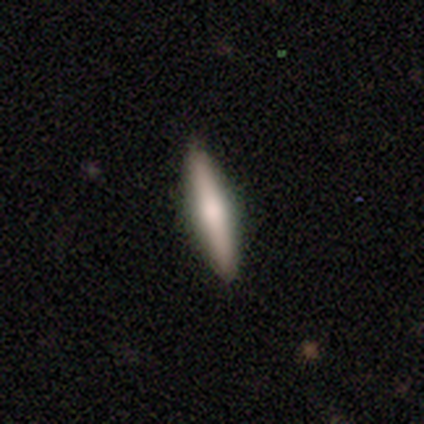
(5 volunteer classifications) smooth_or_featured: smooth (p=0.60) [alt: featured or disk p=0.40]
how_rounded: cigar-shaped (p=1.00)
merging: none (p=1.00)